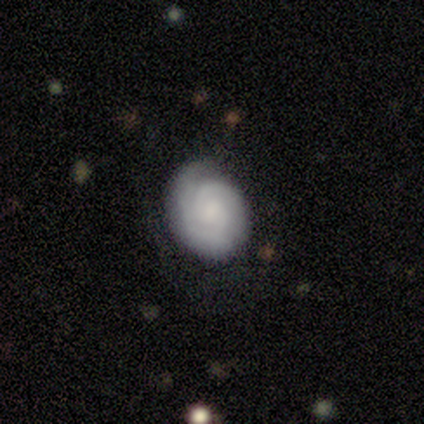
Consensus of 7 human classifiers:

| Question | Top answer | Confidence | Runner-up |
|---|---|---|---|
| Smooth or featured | featured or disk | 86% | smooth (14%) |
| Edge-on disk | no | 100% | — |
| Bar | no | 83% | weak (17%) |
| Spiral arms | yes | 100% | — |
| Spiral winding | tight | 83% | medium (17%) |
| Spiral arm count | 1 | 33% | tied: 2 (33%), can't tell (33%) |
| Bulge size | small | 50% | moderate (33%) |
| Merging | none | 86% | minor disturbance (14%) |